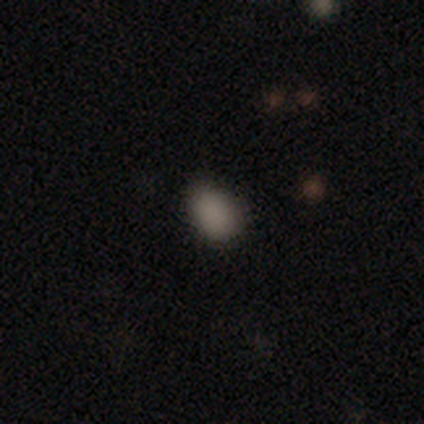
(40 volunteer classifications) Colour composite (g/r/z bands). It shows a smooth galaxy with no disk features (85%) that is in between round and cigar-shaped (85%). Merging: none (82%).